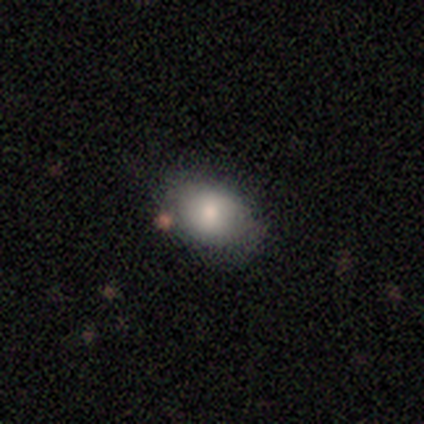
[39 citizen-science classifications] Smooth or featured? 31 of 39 (79%) said smooth. How rounded? 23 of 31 (74%) said in between. Merging? 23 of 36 (64%) said none.